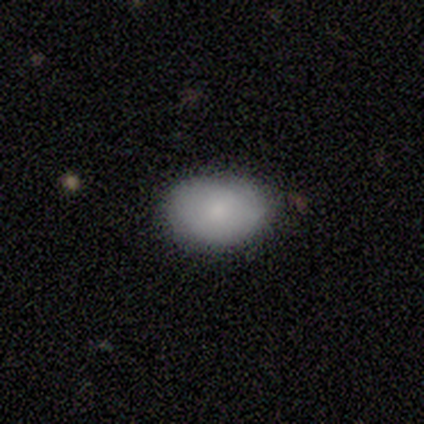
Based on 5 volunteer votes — Smooth or featured? 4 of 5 (80%) said smooth. How rounded? 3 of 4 (75%) said in between. Merging? 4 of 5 (80%) said none.